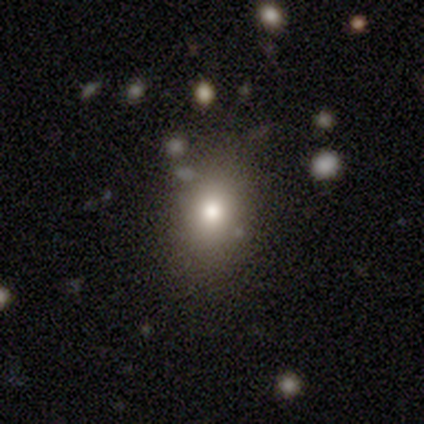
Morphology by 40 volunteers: type=smooth (70%); roundness=in between (61%); merging=none (66%).